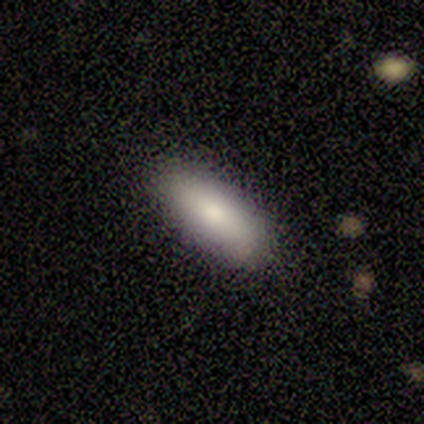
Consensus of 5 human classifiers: This appears to be a smooth galaxy with no disk features (60%) that is in between round and cigar-shaped (100%). Merging: none (100%).